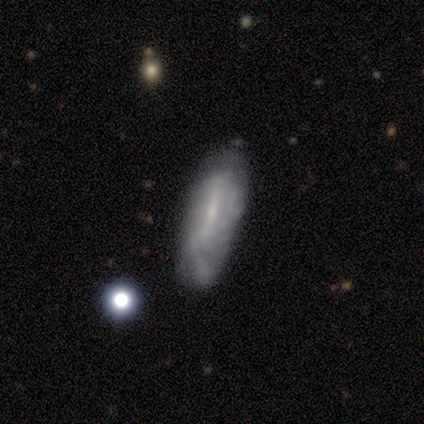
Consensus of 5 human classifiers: Smooth or featured: smooth — 100%
How rounded: in between — 100%
Merging: none — 100%